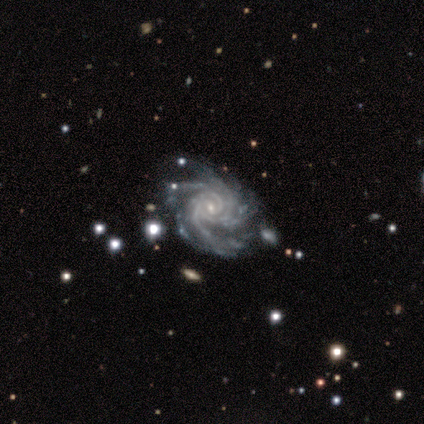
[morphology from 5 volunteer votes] Volunteers were most divided on "bar": weak: 60%, no: 40%, strong: 0%. Remaining: smooth or featured — featured or disk (100%); edge-on disk — no (100%); spiral arms — yes (100%); spiral winding — tight (100%); bulge size — small (100%); merging — none (60%); spiral arm count — 3 (40%).